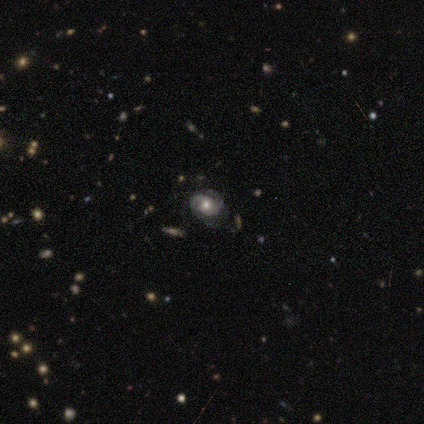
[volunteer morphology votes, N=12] Smooth or featured? 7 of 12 (58%) said featured or disk. Edge-on disk? 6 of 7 (86%) said no. Bar? 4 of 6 (67%) said no. Spiral arms? 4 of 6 (67%) said yes. Spiral winding? 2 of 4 (50%, tied with medium) said tight. Spiral arm count? 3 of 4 (75%) said 2. Bulge size? 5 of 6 (83%) said moderate. Merging? 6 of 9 (67%) said none.